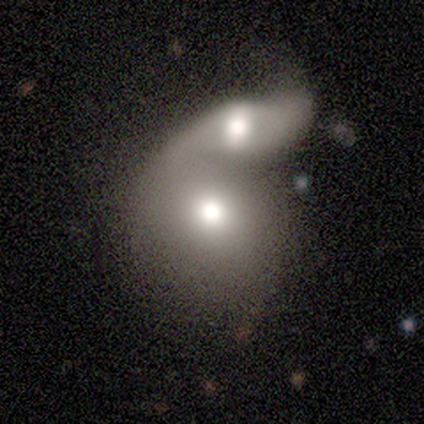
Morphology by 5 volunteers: A featured or disk galaxy (60%) with no bar (100%), no spiral arms (100%) and a moderate central bulge (67%). Merging: merger (100%).